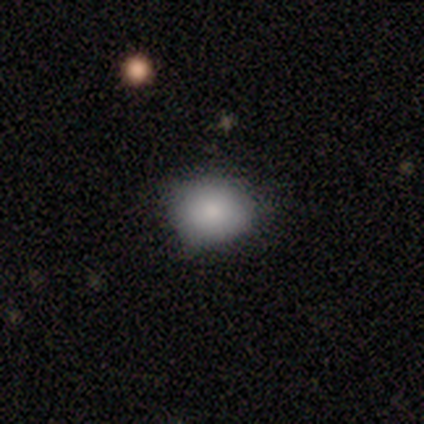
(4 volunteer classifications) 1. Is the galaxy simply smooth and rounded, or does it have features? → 100% smooth, 0% featured or disk, 0% star or artifact.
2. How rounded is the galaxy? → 50% round (tied), 50% in between (tied), 0% cigar-shaped.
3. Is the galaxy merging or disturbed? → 75% none, 25% major disturbance, 0% minor disturbance, 0% merger.